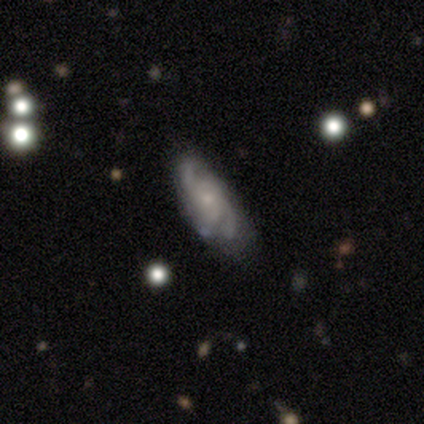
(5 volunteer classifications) A featured or disk galaxy (80%) with no bar (100%), 2 (33%, tied with 3 and 4) medium (100%) spiral arms (100%) and a small central bulge (100%).

Vote fractions:
- Smooth or featured? featured or disk: 80% / smooth: 20% / star or artifact: 0%
- Edge-on disk? no: 75% / yes: 25%
- Bar? no: 100% / strong: 0% / weak: 0%
- Spiral arms? yes: 100% / no: 0%
- Spiral winding? medium: 100% / tight: 0% / loose: 0%
- Spiral arm count? 2: 33% (tied) / 3: 33% (tied) / 4: 33% (tied) / 1: 0% / more than 4: 0% / can't tell: 0%
- Bulge size? small: 100% / dominant: 0% / large: 0% / moderate: 0% / none: 0%
- Merging? none: 60% / minor disturbance: 40% / major disturbance: 0% / merger: 0%